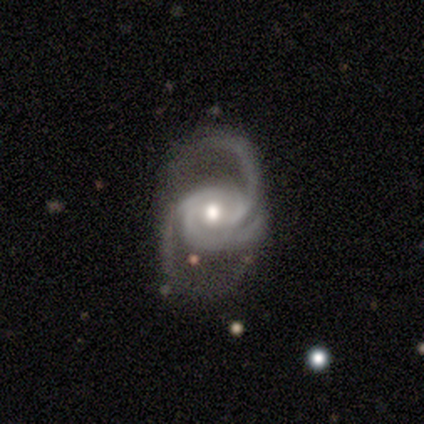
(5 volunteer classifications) Smooth or featured?
  - featured or disk: 100% *
  - smooth: 0%
  - star or artifact: 0%
Edge-on disk?
  - no: 100% *
  - yes: 0%
Bar?
  - no: 80% *
  - weak: 20%
  - strong: 0%
Spiral arms?
  - yes: 80% *
  - no: 20%
Spiral winding?
  - medium: 75% *
  - loose: 25%
  - tight: 0%
Spiral arm count?
  - 3: 50% *
  - 2: 25%
  - can't tell: 25%
  - 1: 0%
  - 4: 0%
  - more than 4: 0%
Bulge size?
  - moderate: 100% *
  - dominant: 0%
  - large: 0%
  - small: 0%
  - none: 0%
Merging?
  - minor disturbance: 60% *
  - none: 20%
  - major disturbance: 20%
  - merger: 0%